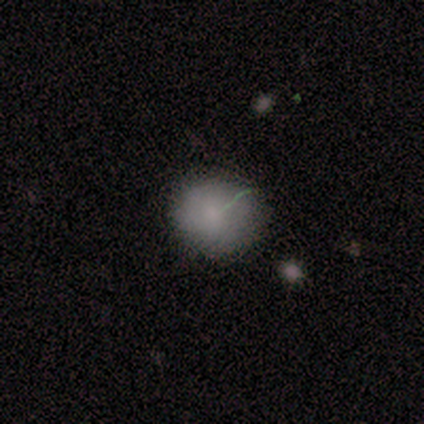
smooth-or-featured: smooth: 70% | featured or disk: 20% | star or artifact: 10%
  how-rounded: round: 71% | in between: 29% | cigar-shaped: 0%
  merging: none: 89% | minor disturbance: 11% | major disturbance: 0% | merger: 0%